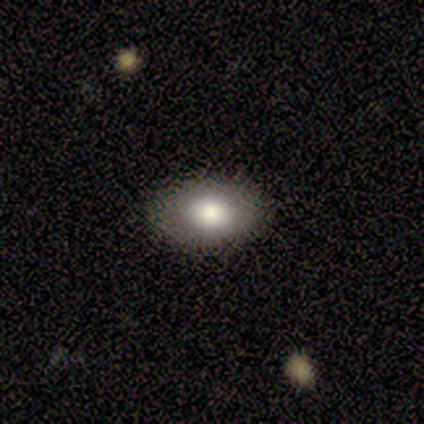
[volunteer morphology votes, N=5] smooth_or_featured: smooth (p=0.60) [alt: featured or disk p=0.40]
how_rounded: in between (p=1.00)
merging: none (p=1.00)